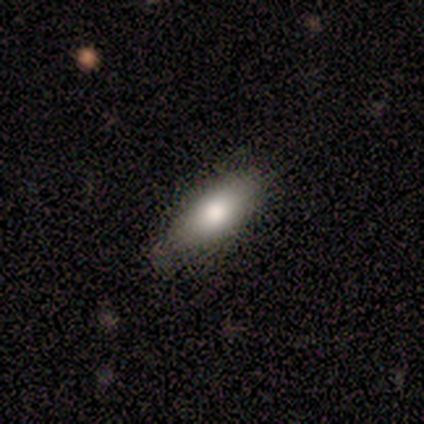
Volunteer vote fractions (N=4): A smooth galaxy with no disk features (100%) that is in between round and cigar-shaped (100%). Merging: minor disturbance (50%).